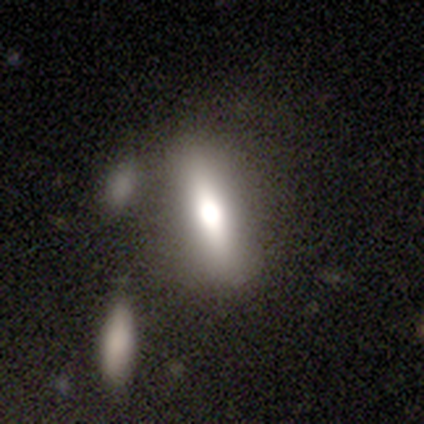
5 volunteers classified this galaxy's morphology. Volunteers were most divided on "merging" (4-way tie): none: 25%, minor disturbance: 25%, major disturbance: 25%, merger: 25%. More confident: how rounded — cigar-shaped (67%); smooth or featured — smooth (60%).